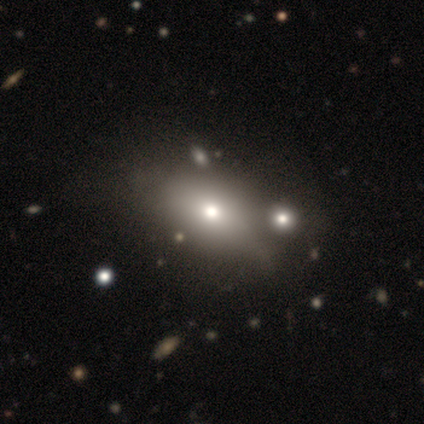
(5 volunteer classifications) Smooth or featured?
  - smooth: 80% *
  - featured or disk: 20%
  - star or artifact: 0%
How rounded?
  - in between: 75% *
  - cigar-shaped: 25%
  - round: 0%
Merging?
  - none: 40% * (tied)
  - minor disturbance: 40% * (tied)
  - major disturbance: 20%
  - merger: 0%